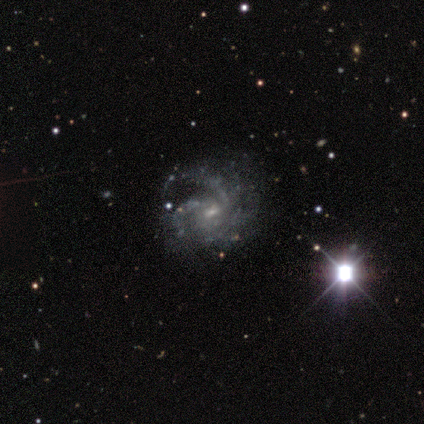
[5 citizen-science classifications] featured or disk 80%, smooth 20%, star or artifact 0%. Down the decision tree: edge-on disk — no (100%); bar — weak (75%); spiral arms — yes (100%); spiral arm count — can't tell (50%); spiral winding — tight (50%, tied with medium); bulge size — small (100%); merging — none (40%, tied with major disturbance).